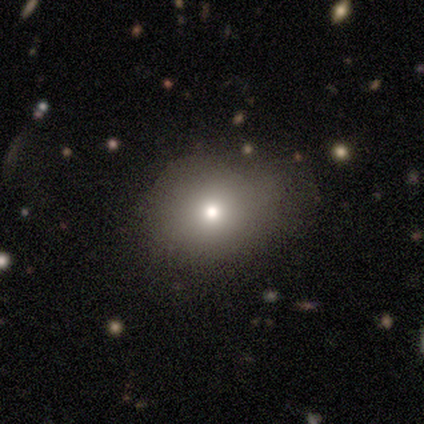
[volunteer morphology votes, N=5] type=smooth (60%); roundness=in between (67%); merging=minor disturbance (80%).